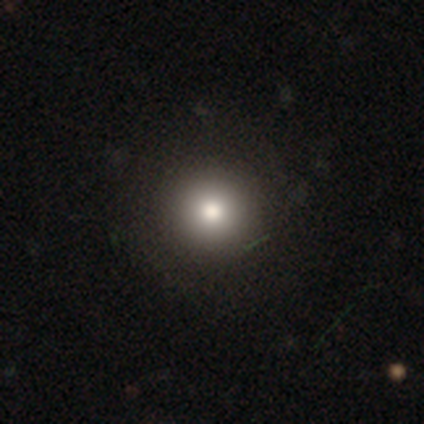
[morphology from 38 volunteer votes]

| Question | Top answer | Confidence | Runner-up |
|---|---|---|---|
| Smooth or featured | smooth | 76% | star or artifact (18%) |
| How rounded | round | 97% | in between (3%) |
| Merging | none | 65% | merger (3%) |